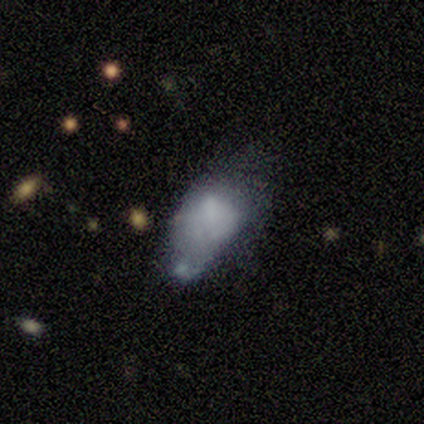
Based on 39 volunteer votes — Smooth or featured: smooth — 64% (featured or disk — 28%)
How rounded: in between — 96% (round — 4%)
Merging: minor disturbance — 47% (major disturbance — 25%)